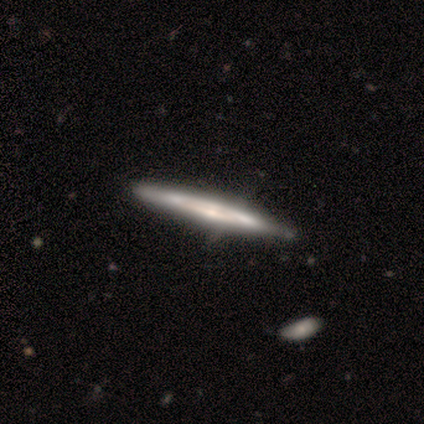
A featured or disk galaxy (68%) viewed edge-on (85%) with no central bulge (65%). Merging: none (70%).